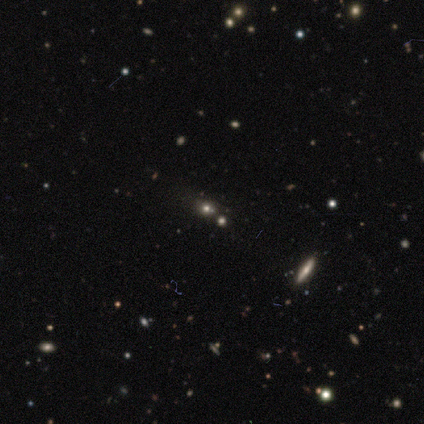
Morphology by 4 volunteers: Smooth or featured?
  - star or artifact: 50% *
  - smooth: 25%
  - featured or disk: 25%